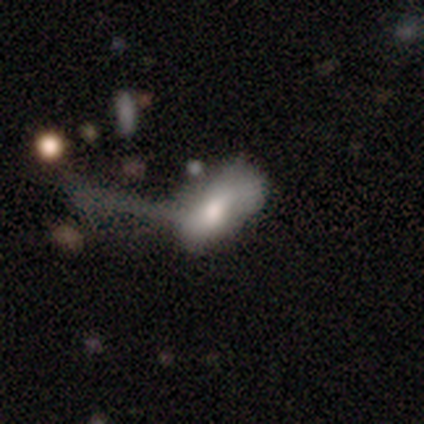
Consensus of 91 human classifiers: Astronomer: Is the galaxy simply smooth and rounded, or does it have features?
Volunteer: smooth — 66%.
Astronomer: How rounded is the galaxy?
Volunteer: in between — 87%.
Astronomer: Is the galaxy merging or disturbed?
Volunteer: major disturbance — 64%.